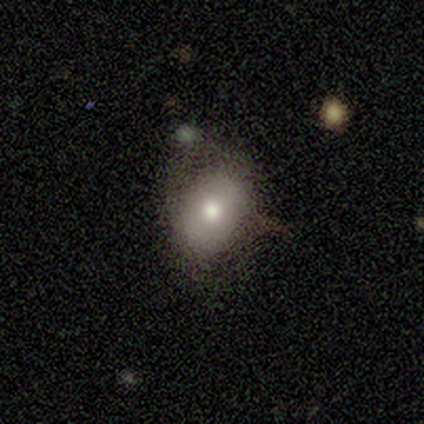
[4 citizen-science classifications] This appears to be a smooth galaxy with no disk features (75%) that is round (67%). Merging: none (67%).